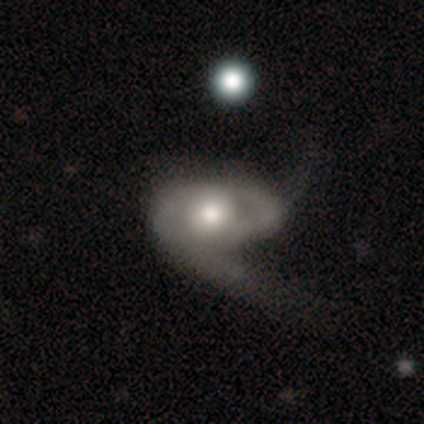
featured or disk 100%, smooth 0%, star or artifact 0%. Down the decision tree: edge-on disk — no (80%); bar — no (75%); spiral arms — yes (75%); spiral arm count — 1 (67%); spiral winding — tight (67%); bulge size — moderate (100%); merging — major disturbance (60%).